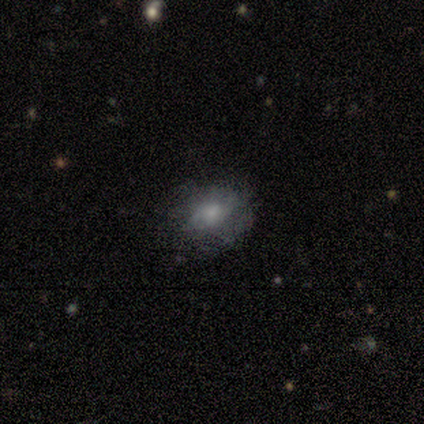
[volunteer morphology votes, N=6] Smooth or featured: smooth — 83% (featured or disk — 17%)
How rounded: in between — 80% (round — 20%)
Merging: none — 67% (minor disturbance — 17%)